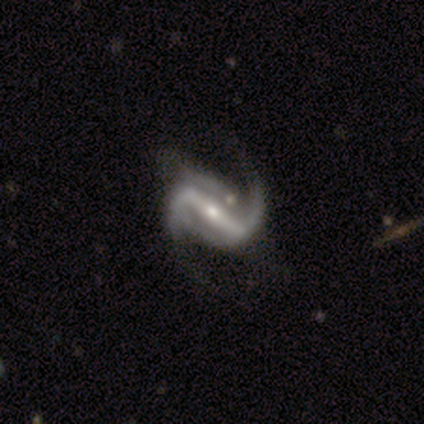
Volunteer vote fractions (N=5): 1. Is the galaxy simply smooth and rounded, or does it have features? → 100% featured or disk, 0% smooth, 0% star or artifact.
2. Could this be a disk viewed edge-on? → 80% no, 20% yes.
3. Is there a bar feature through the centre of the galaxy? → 50% strong (tied), 50% weak (tied), 0% no.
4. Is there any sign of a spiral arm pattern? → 100% yes, 0% no.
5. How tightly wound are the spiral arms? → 75% loose, 25% medium, 0% tight.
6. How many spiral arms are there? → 75% 2, 25% can't tell, 0% 1, 0% 3, 0% 4, 0% more than 4.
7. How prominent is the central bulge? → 75% small, 25% moderate, 0% dominant, 0% large, 0% none.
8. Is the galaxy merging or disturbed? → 80% none, 20% merger, 0% minor disturbance, 0% major disturbance.